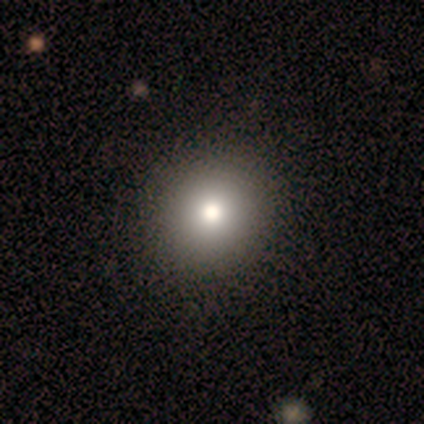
A smooth galaxy with no disk features (80%) that is round (100%). Merging: none (100%).